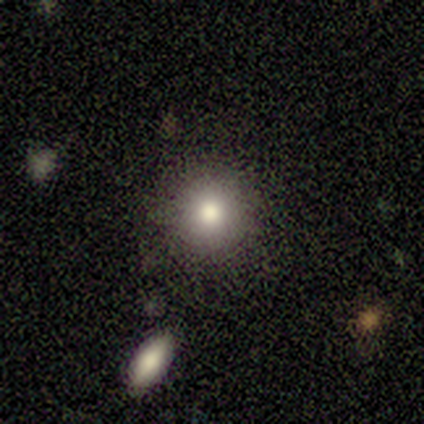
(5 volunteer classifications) Overall: smooth (80%). How rounded: round (100%). Merging: none (100%).